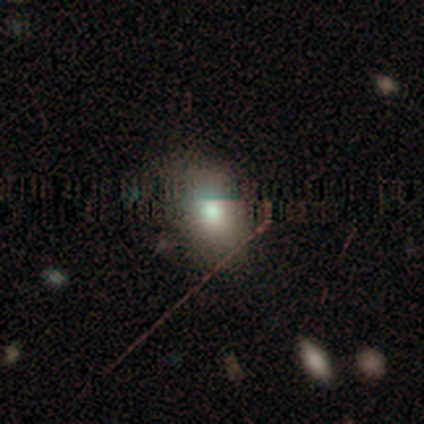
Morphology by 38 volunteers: smooth_or_featured: smooth (p=0.61) [alt: star or artifact p=0.32]
how_rounded: in between (p=0.78) [alt: round p=0.22]
merging: none (p=0.81) [alt: minor disturbance p=0.15]